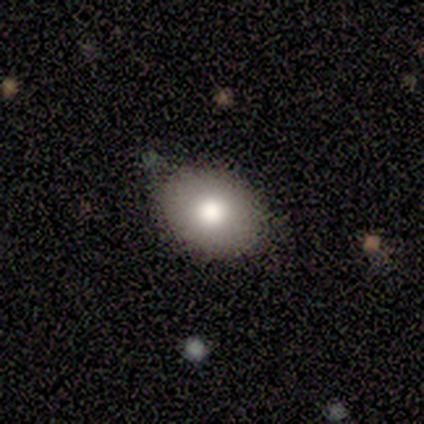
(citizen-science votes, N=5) smooth-or-featured: smooth: 100% | featured or disk: 0% | star or artifact: 0%
  how-rounded: in between: 100% | round: 0% | cigar-shaped: 0%
  merging: none: 80% | minor disturbance: 20% | major disturbance: 0% | merger: 0%